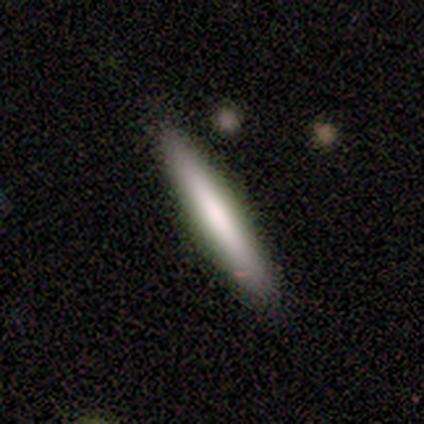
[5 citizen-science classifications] A smooth galaxy with no disk features (60%) that is cigar-shaped (100%). Merging: none (100%).